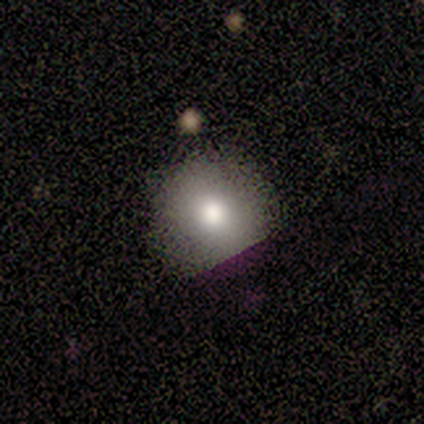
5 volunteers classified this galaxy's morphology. This appears to be a smooth galaxy with no disk features (60%) that is round (100%). Merging: none (75%).